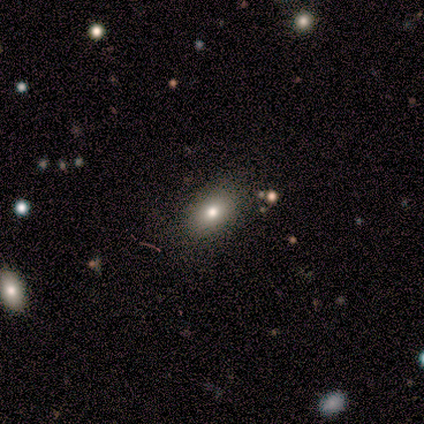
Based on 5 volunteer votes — Q: Smooth or featured?
A: smooth (100%)
Q: How rounded?
A: in between (100%)
Q: Merging?
A: none (80%); runner-up: minor disturbance (20%)